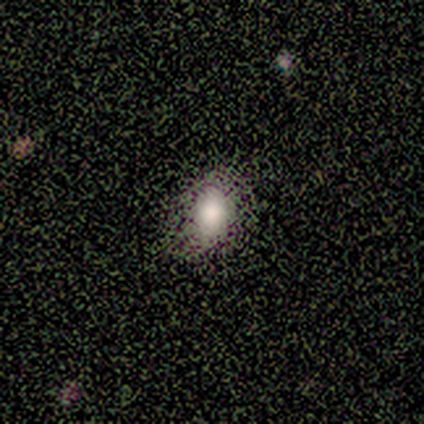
This appears to be a smooth galaxy with no disk features (80%) that is in between round and cigar-shaped (100%). Merging: none (100%).